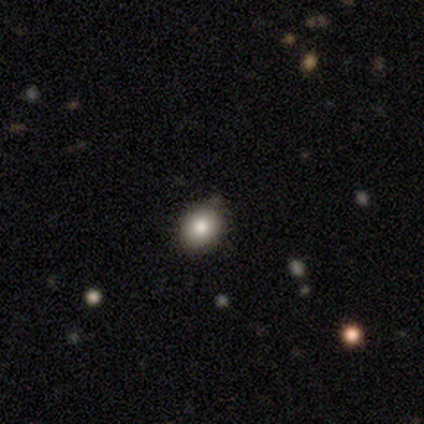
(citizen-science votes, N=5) This appears to be a smooth galaxy with no disk features (100%) that is round (80%). Merging: none (60%).